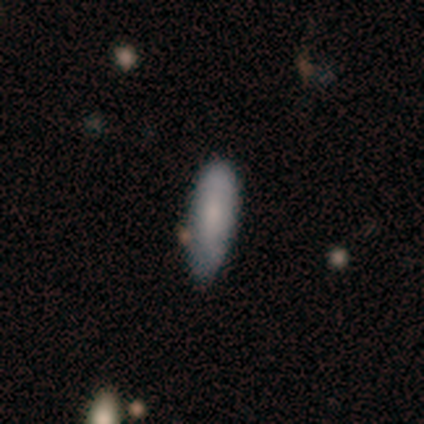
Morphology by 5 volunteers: Volunteers were most divided on "merging": none: 60%, minor disturbance: 20%, merger: 20%, major disturbance: 0%. More confident: smooth or featured — smooth (80%); how rounded — in between (75%).